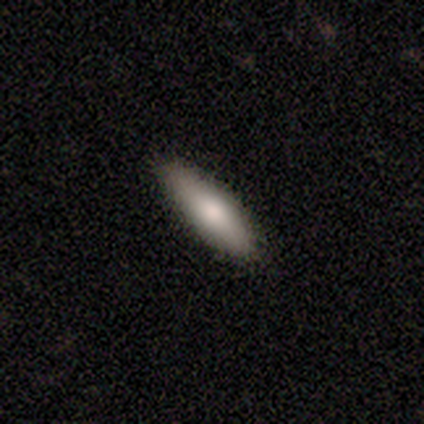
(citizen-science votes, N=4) Morphology: type=smooth (75%); roundness=cigar-shaped (100%); merging=none (75%).